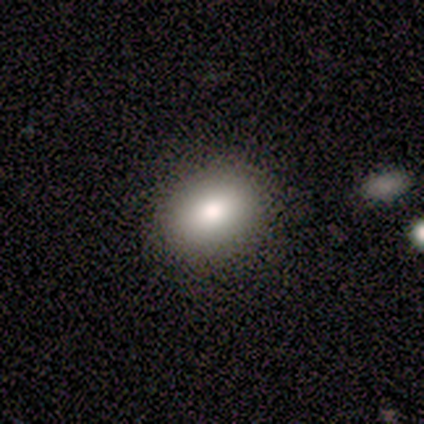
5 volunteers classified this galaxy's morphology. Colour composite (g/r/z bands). It shows a smooth galaxy with no disk features (100%) that is in between round and cigar-shaped (80%). Merging: none (60%).